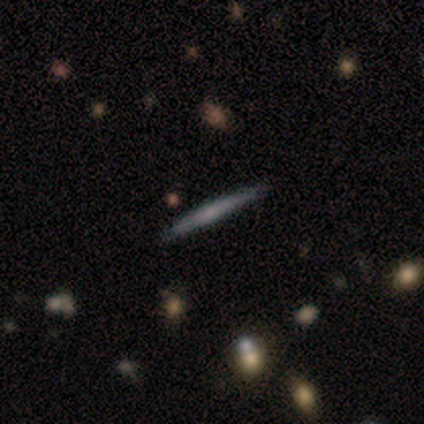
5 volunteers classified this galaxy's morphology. Q: Smooth or featured?
A: featured or disk (80%); runner-up: smooth (20%)
Q: Edge-on disk?
A: yes (100%)
Q: Edge-on bulge?
A: none (50%); tied with: rounded (50%)
Q: Merging?
A: none (60%); runner-up: minor disturbance (20%)